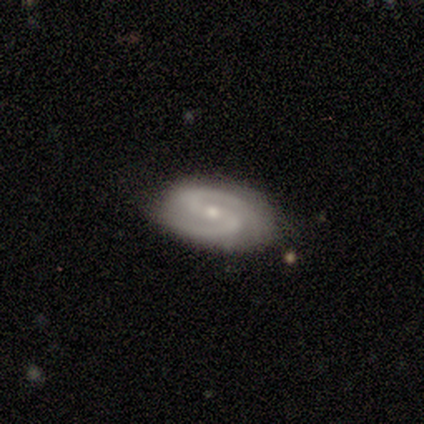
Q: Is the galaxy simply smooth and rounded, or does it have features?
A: featured or disk — 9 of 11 (82%).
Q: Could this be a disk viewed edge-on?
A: no — 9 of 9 (100%).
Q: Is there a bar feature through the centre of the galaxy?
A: weak — 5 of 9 (56%).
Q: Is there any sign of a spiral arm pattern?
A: yes — 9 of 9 (100%).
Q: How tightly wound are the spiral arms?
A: medium — 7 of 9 (78%).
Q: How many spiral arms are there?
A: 2 — 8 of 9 (89%).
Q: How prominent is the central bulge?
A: small — 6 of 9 (67%).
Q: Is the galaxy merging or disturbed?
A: none — 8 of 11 (73%).